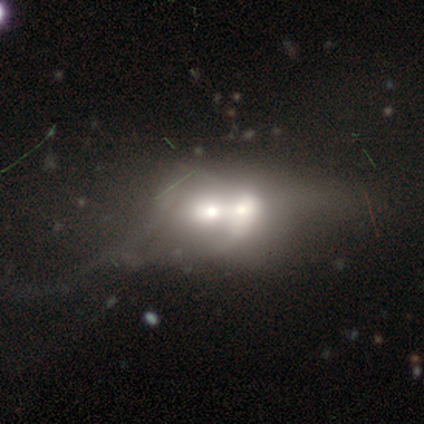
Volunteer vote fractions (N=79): Smooth or featured? smooth (47%)
How rounded? round (51%)
Merging? merger (74%)